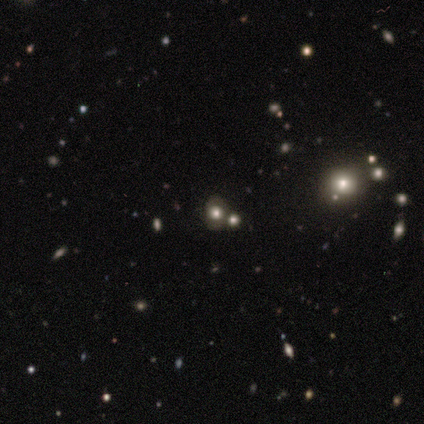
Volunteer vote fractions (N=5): smooth_or_featured: smooth (p=1.00)
how_rounded: in between (p=0.60) [alt: round p=0.40]
merging: none (p=0.80) [alt: merger p=0.20]